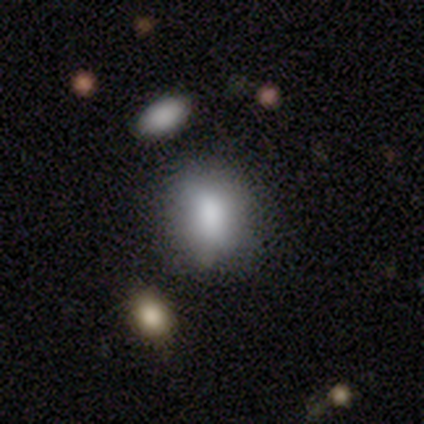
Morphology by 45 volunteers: Smooth or featured? 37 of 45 (82%) said smooth. How rounded? 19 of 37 (51%) said in between. Merging? 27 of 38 (71%) said none.